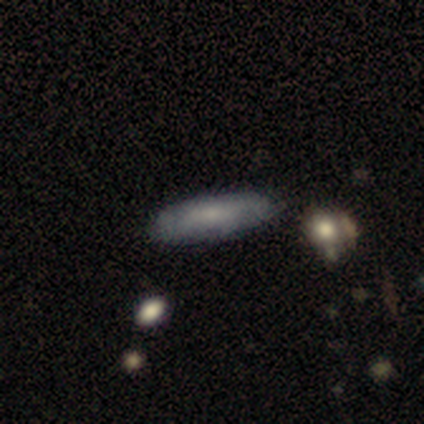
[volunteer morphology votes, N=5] Volunteers were most divided on "how rounded": cigar-shaped: 60%, in between: 40%, round: 0%. More confident: smooth or featured — smooth (100%); merging — none (100%).